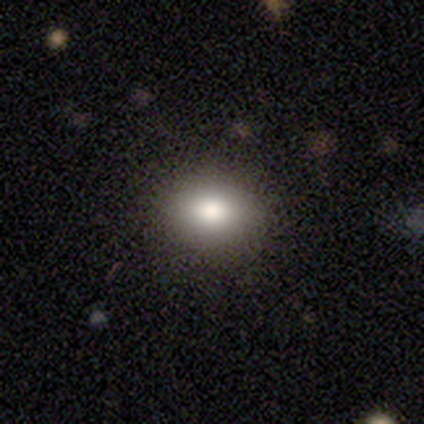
Smooth or featured? 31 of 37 (84%) said smooth. How rounded? 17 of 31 (55%) said in between. Merging? 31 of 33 (94%) said none.